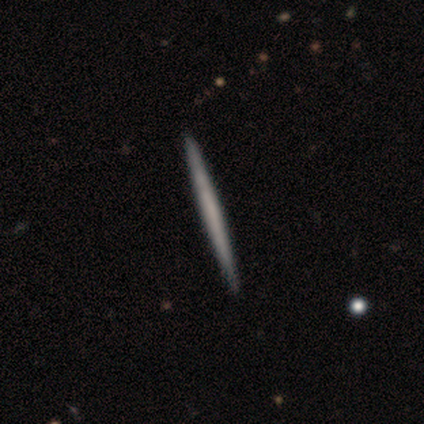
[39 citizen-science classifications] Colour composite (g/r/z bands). It shows a smooth galaxy with no disk features (56%) that is cigar-shaped (100%). Merging: none (64%).